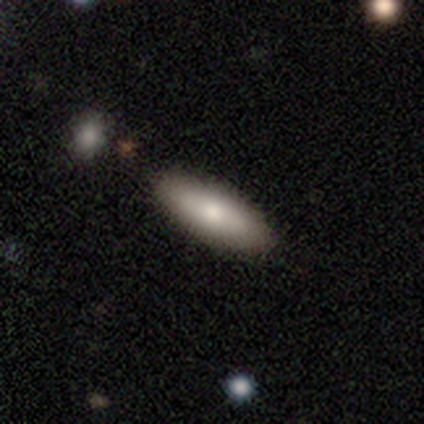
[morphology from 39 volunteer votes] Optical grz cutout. It shows a smooth galaxy with no disk features (82%) that is in between round and cigar-shaped (72%). Merging: none (64%).